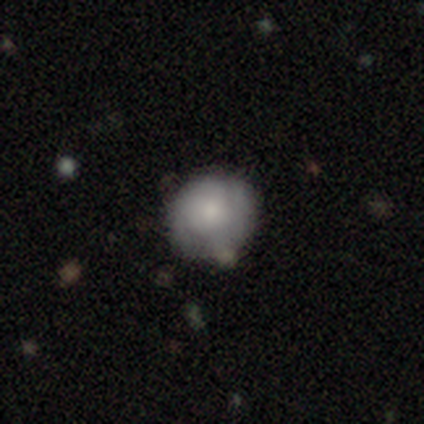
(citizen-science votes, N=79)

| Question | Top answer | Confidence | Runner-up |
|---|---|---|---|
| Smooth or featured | smooth | 57% | featured or disk (37%) |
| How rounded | round | 87% | in between (13%) |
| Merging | none | 38% | merger (12%) |